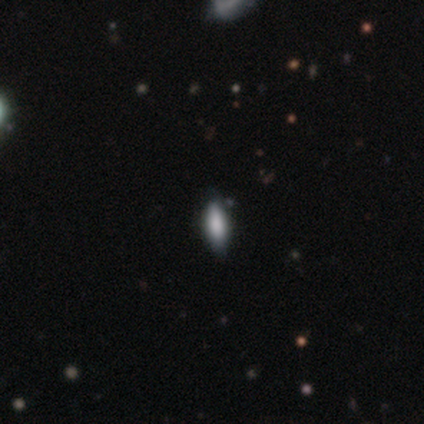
A smooth galaxy with no disk features (60%) that is in between round and cigar-shaped (100%).

Vote fractions:
- Smooth or featured? smooth: 60% / star or artifact: 40% / featured or disk: 0%
- How rounded? in between: 100% / round: 0% / cigar-shaped: 0%
- Merging? none: 100% / minor disturbance: 0% / major disturbance: 0% / merger: 0%